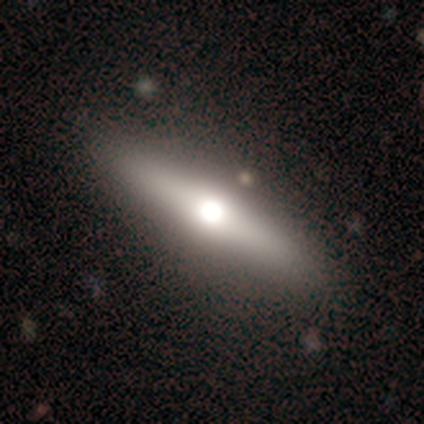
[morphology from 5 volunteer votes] Smooth or featured?
  - smooth: 80% *
  - featured or disk: 20%
  - star or artifact: 0%
How rounded?
  - in between: 50% * (tied)
  - cigar-shaped: 50% * (tied)
  - round: 0%
Merging?
  - none: 100% *
  - minor disturbance: 0%
  - major disturbance: 0%
  - merger: 0%